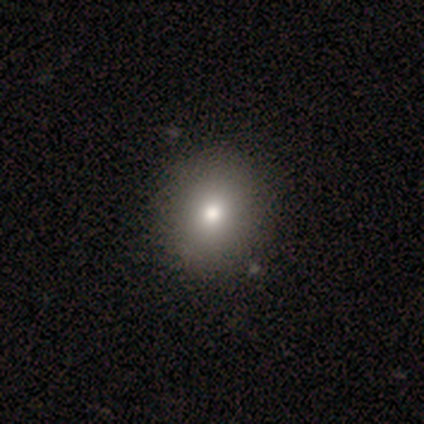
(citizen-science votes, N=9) smooth_or_featured: smooth (p=0.89) [alt: star or artifact p=0.11]
how_rounded: round (p=0.75) [alt: in between p=0.25]
merging: none (p=1.00)